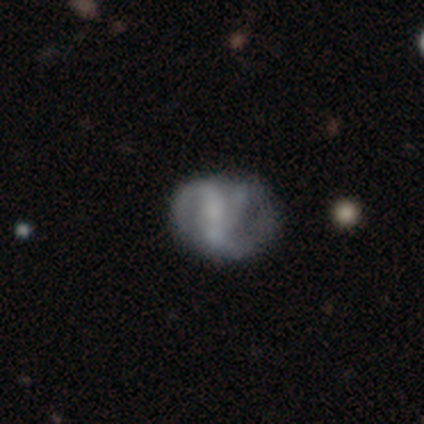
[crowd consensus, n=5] A featured or disk galaxy (60%) with no bar (67%), no spiral arms (67%) and a moderate central bulge (33%, tied with small and none). Merging: minor disturbance (50%).